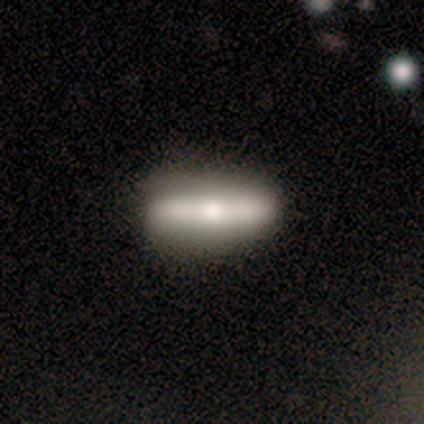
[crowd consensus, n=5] A smooth galaxy with no disk features (60%) that is cigar-shaped (100%).

Vote fractions:
- Smooth or featured? smooth: 60% / featured or disk: 40% / star or artifact: 0%
- How rounded? cigar-shaped: 100% / round: 0% / in between: 0%
- Merging? none: 60% / minor disturbance: 20% / major disturbance: 20% / merger: 0%